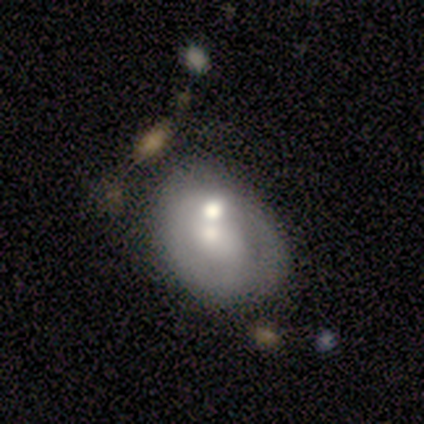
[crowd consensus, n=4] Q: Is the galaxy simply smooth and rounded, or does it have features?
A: smooth — 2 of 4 (50%, tied with featured or disk).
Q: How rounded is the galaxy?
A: round — 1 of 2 (50%, tied with in between).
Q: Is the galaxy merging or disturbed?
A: merger — 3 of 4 (75%).